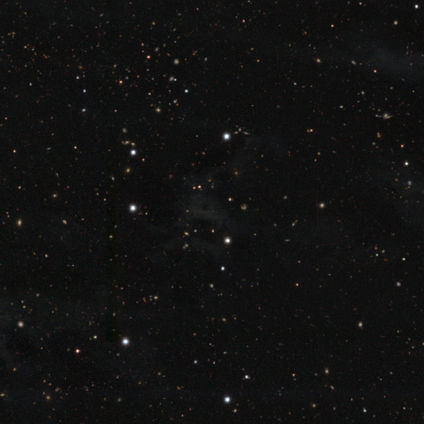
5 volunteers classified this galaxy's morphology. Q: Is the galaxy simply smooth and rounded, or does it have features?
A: star or artifact — 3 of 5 (60%).